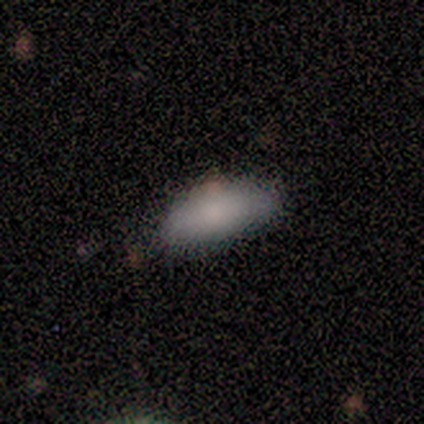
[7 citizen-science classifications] A smooth galaxy with no disk features (86%) that is in between round and cigar-shaped (83%). Merging: none (67%).